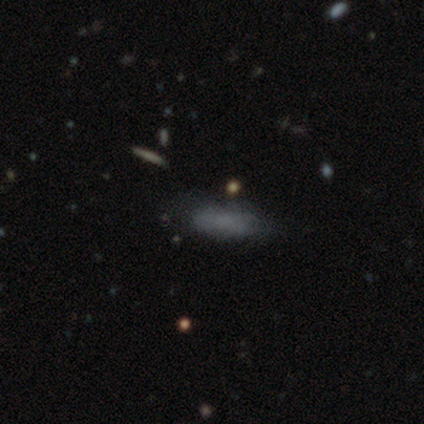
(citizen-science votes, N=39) Smooth or featured? smooth (82%)
How rounded? in between (69%)
Merging? none (64%)